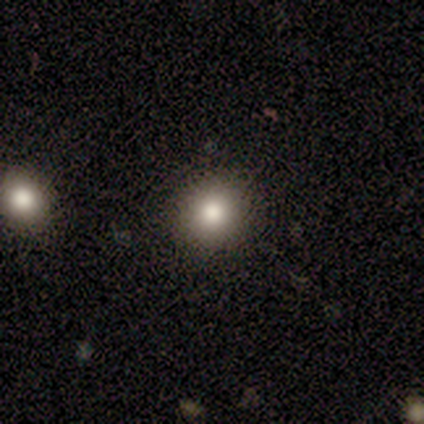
smooth 89%, star or artifact 8%, featured or disk 3%. Down the decision tree: how rounded — round (88%); merging — none (97%).